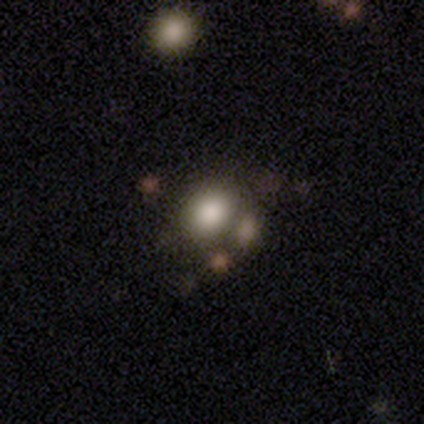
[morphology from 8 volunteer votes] This is clearly a smooth galaxy (88%). How rounded: possibly in between (57%). Merging: likely none (71%).